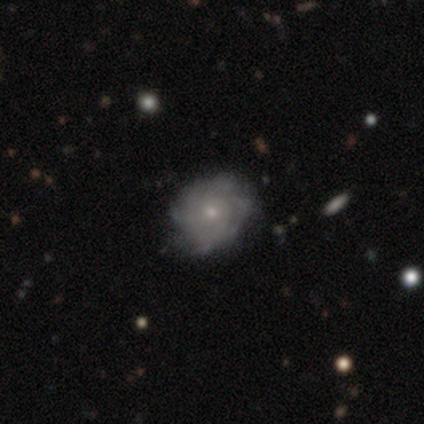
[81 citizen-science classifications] Smooth or featured?
  - featured or disk: 77% *
  - smooth: 16%
  - star or artifact: 7%
Edge-on disk?
  - no: 97% *
  - yes: 3%
Bar?
  - no: 92% *
  - weak: 8%
  - strong: 0%
Spiral arms?
  - yes: 73% *
  - no: 27%
Spiral winding?
  - tight: 70% *
  - medium: 23%
  - loose: 7%
Spiral arm count?
  - can't tell: 59% *
  - 3: 11%
  - 4: 9%
  - more than 4: 9%
  - 1: 7%
  - 2: 5%
Bulge size?
  - small: 68% *
  - moderate: 30%
  - none: 2%
  - dominant: 0%
  - large: 0%
Merging?
  - none: 35% *
  - minor disturbance: 9%
  - merger: 5%
  - major disturbance: 1%